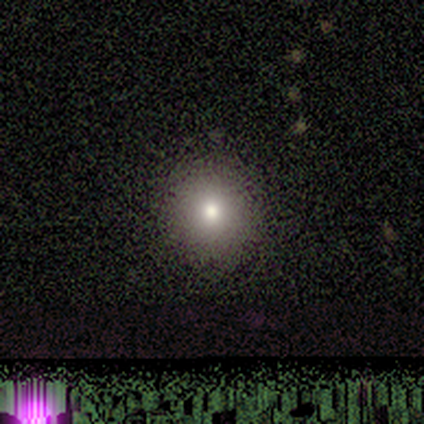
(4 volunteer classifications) A featured or disk galaxy (50%) with a strong bar (50%, tied with no), no spiral arms (100%) and a large central bulge (50%, tied with small).

Vote fractions:
- Smooth or featured? featured or disk: 50% / smooth: 25% / star or artifact: 25%
- Edge-on disk? no: 100% / yes: 0%
- Bar? strong: 50% (tied) / no: 50% (tied) / weak: 0%
- Spiral arms? no: 100% / yes: 0%
- Bulge size? large: 50% (tied) / small: 50% (tied) / dominant: 0% / moderate: 0% / none: 0%
- Merging? none: 100% / minor disturbance: 0% / major disturbance: 0% / merger: 0%